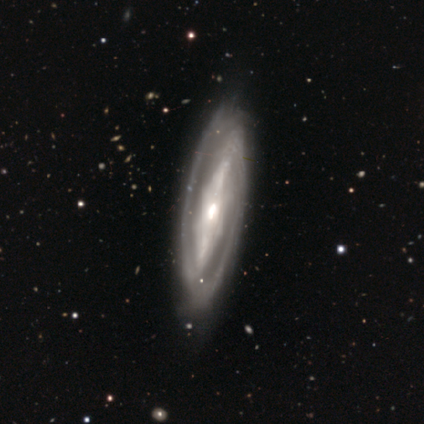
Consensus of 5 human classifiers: Smooth or featured? featured or disk (100%)
Edge-on disk? no (100%)
Bar? strong (80%)
Spiral arms? yes (80%)
Spiral winding? tight (75%)
Spiral arm count? 2 (100%)
Bulge size? moderate (60%)
Merging? none (60%)